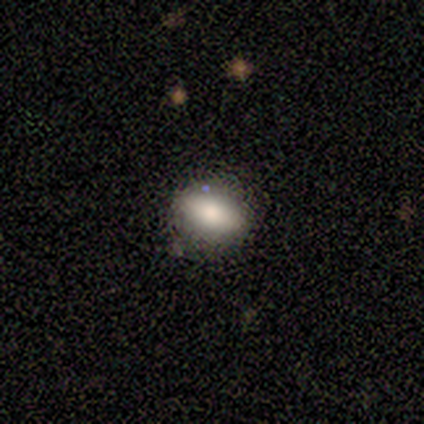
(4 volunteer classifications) Smooth or featured?
  - smooth: 100% *
  - featured or disk: 0%
  - star or artifact: 0%
How rounded?
  - in between: 75% *
  - round: 25%
  - cigar-shaped: 0%
Merging?
  - none: 100% *
  - minor disturbance: 0%
  - major disturbance: 0%
  - merger: 0%